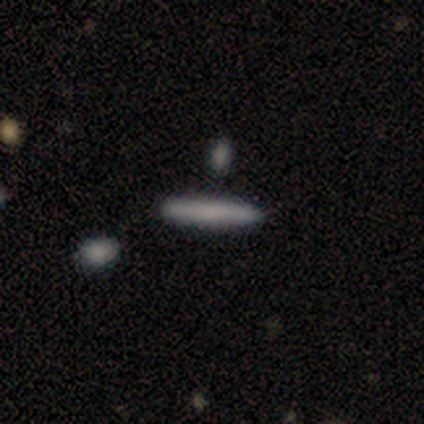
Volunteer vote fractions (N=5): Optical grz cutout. It shows a smooth galaxy with no disk features (100%) that is cigar-shaped (80%). Merging: none (100%).